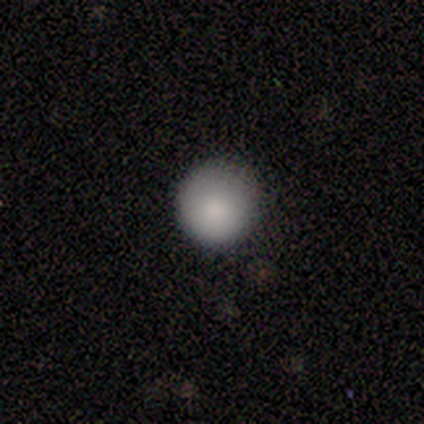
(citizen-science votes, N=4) Smooth or featured? smooth (100%)
How rounded? round (100%)
Merging? none (100%)